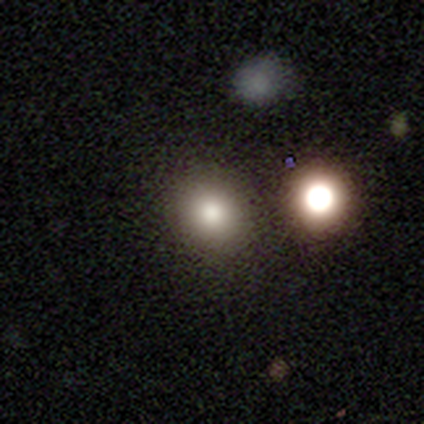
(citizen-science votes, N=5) Morphology: type=smooth (100%); roundness=round (80%); merging=none (100%).